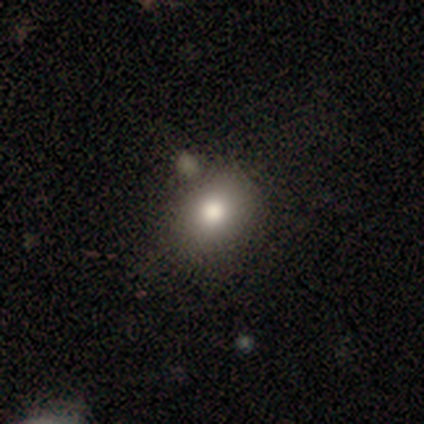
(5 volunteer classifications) Smooth or featured? smooth (100%)
How rounded? round (60%)
Merging? minor disturbance (60%)